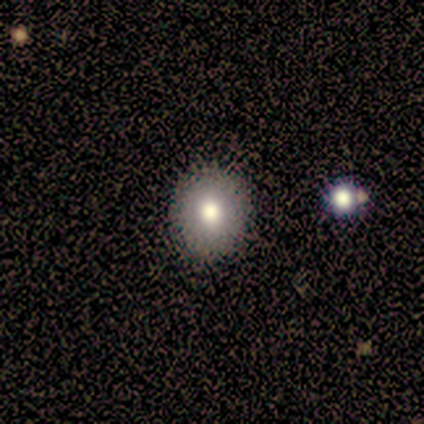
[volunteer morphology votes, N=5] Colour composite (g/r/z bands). It shows a smooth galaxy with no disk features (40%, tied with featured or disk) that is round (100%). Merging: none (100%).